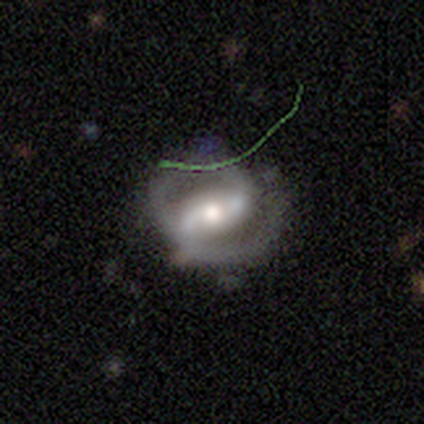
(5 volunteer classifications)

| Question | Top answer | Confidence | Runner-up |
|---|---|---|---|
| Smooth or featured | featured or disk | 80% | smooth (20%) |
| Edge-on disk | no | 75% | yes (25%) |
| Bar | weak | 100% | — |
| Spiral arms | yes | 100% | — |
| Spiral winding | tight | 67% | loose (33%) |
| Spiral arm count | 2 | 67% | can't tell (33%) |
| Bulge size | large | 67% | moderate (33%) |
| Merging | minor disturbance | 40% | tied: major disturbance (40%) |